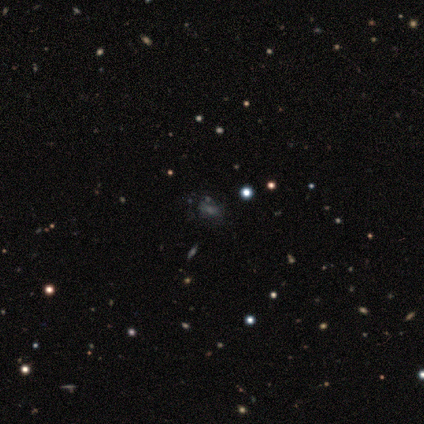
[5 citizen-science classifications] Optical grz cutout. It shows a star or artifact, not a galaxy (60%).